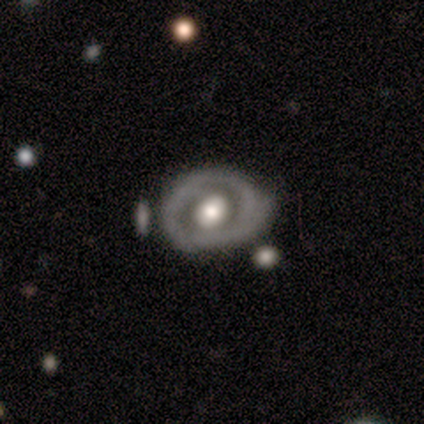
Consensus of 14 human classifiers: Smooth or featured? 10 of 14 (71%) said featured or disk. Edge-on disk? 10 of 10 (100%) said no. Bar? 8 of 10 (80%) said no. Spiral arms? 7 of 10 (70%) said no. Bulge size? 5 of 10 (50%) said moderate. Merging? 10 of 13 (77%) said none.